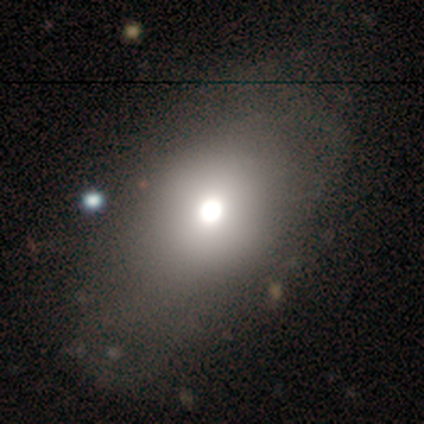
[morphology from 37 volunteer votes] smooth 84%, featured or disk 8%, star or artifact 8%. Down the decision tree: how rounded — in between (74%); merging — none (53%).